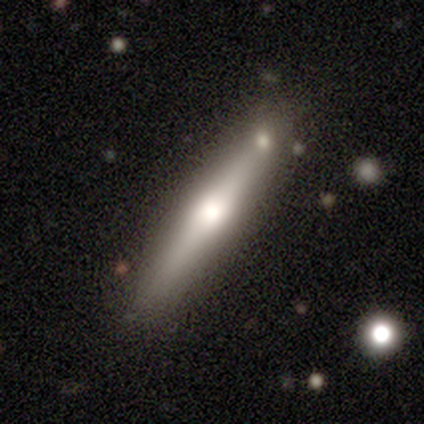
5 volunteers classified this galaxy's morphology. This appears to be a featured or disk galaxy (100%) viewed edge-on (100%) with a rounded central bulge (60%). Merging: none (100%).